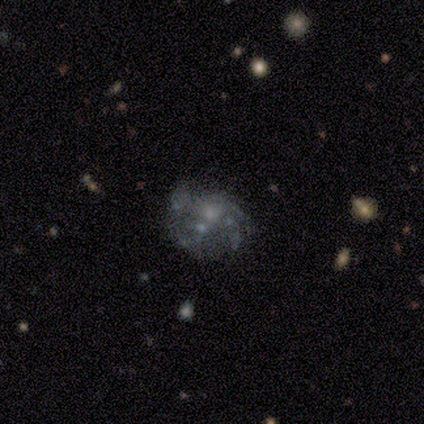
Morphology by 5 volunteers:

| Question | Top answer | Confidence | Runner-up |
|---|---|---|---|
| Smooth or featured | featured or disk | 80% | star or artifact (20%) |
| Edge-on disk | no | 100% | — |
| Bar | no | 100% | — |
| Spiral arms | no | 100% | — |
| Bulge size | small | 50% | tied: none (50%) |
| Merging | none | 75% | major disturbance (25%) |